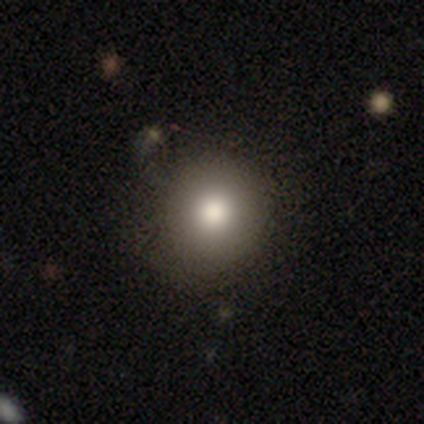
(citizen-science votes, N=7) Overall: smooth (57%; star or artifact 29%). How rounded: round (100%). Merging: none (80%).